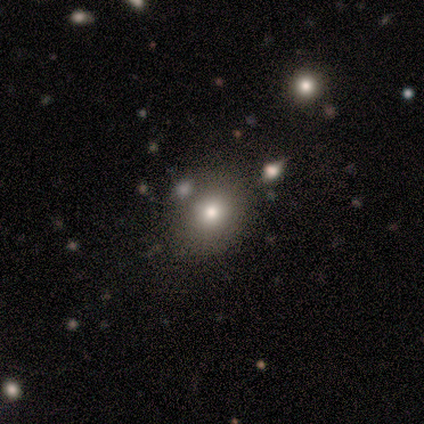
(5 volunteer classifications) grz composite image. It shows a smooth galaxy with no disk features (60%) that is round (67%). Merging: none (100%).